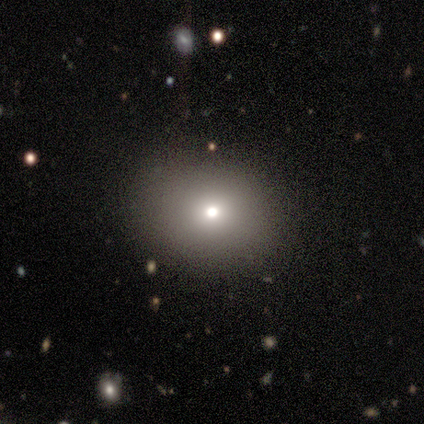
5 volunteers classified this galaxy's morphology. This appears to be a smooth galaxy with no disk features (80%) that is round (100%). Merging: none (80%).